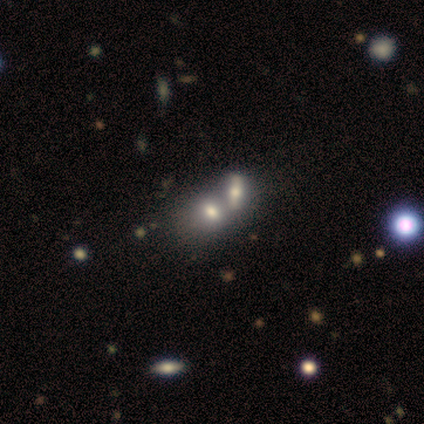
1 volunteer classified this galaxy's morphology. Smooth or featured? 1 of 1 (100%) said featured or disk. Edge-on disk? 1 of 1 (100%) said no. Bar? 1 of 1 (100%) said no. Spiral arms? 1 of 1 (100%) said no. Bulge size? 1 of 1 (100%) said moderate. Merging? 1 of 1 (100%) said none.